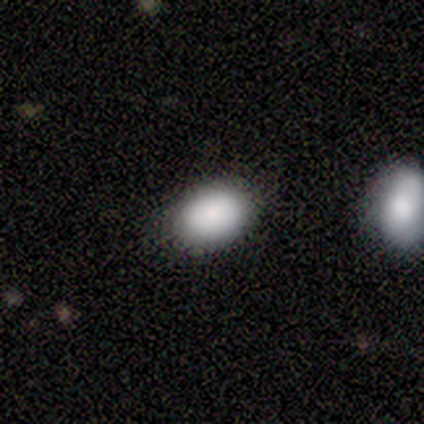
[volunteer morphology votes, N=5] This is clearly a smooth galaxy (100%). How rounded: clearly in between (100%). Merging: clearly none (100%).